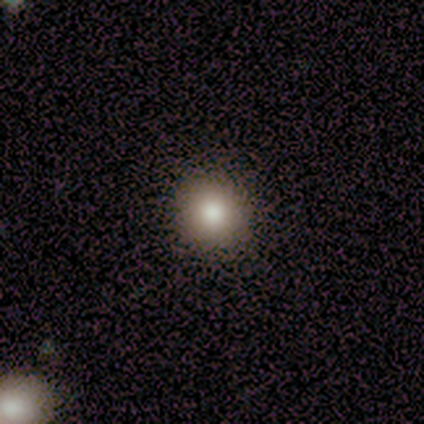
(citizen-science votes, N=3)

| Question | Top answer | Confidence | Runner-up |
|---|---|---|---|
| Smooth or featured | smooth | 100% | — |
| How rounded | round | 100% | — |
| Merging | none | 100% | — |